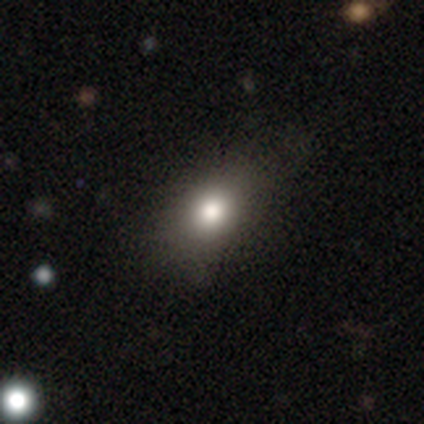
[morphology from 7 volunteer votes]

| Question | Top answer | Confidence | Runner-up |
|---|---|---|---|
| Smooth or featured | smooth | 86% | star or artifact (14%) |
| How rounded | in between | 67% | round (33%) |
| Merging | none | 67% | minor disturbance (33%) |